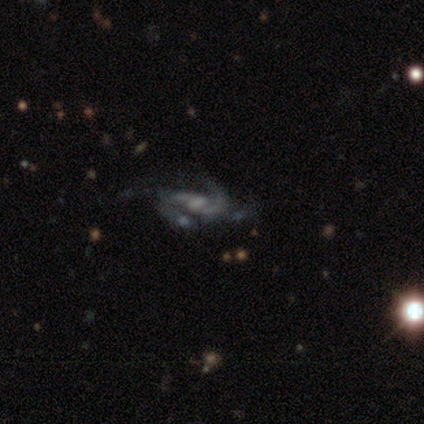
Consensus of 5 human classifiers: Smooth or featured?
  - featured or disk: 60% *
  - star or artifact: 40%
  - smooth: 0%
Edge-on disk?
  - no: 100% *
  - yes: 0%
Bar?
  - no: 67% *
  - weak: 33%
  - strong: 0%
Spiral arms?
  - yes: 67% *
  - no: 33%
Spiral winding?
  - medium: 50% * (tied)
  - loose: 50% * (tied)
  - tight: 0%
Spiral arm count?
  - 2: 100% *
  - 1: 0%
  - 3: 0%
  - 4: 0%
  - more than 4: 0%
  - can't tell: 0%
Bulge size?
  - none: 67% *
  - small: 33%
  - dominant: 0%
  - large: 0%
  - moderate: 0%
Merging?
  - none: 100% *
  - minor disturbance: 0%
  - major disturbance: 0%
  - merger: 0%